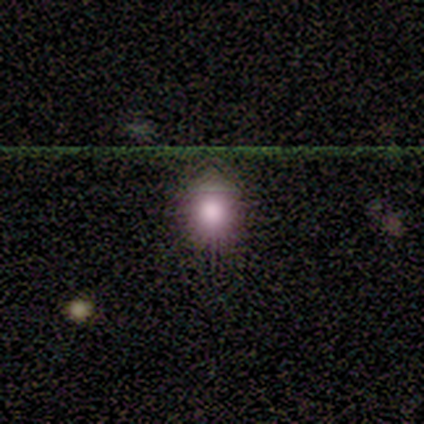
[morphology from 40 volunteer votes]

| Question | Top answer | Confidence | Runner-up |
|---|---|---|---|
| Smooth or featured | smooth | 60% | star or artifact (35%) |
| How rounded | round | 83% | in between (17%) |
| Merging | none | 85% | minor disturbance (15%) |